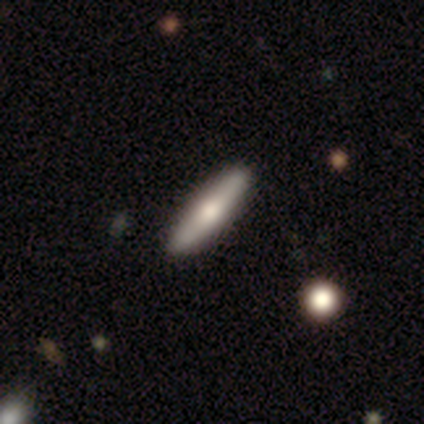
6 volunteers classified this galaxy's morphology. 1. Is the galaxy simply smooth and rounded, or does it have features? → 50% smooth (tied), 50% featured or disk (tied), 0% star or artifact.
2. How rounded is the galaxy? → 67% cigar-shaped, 33% round, 0% in between.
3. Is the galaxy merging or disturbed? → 100% none, 0% minor disturbance, 0% major disturbance, 0% merger.